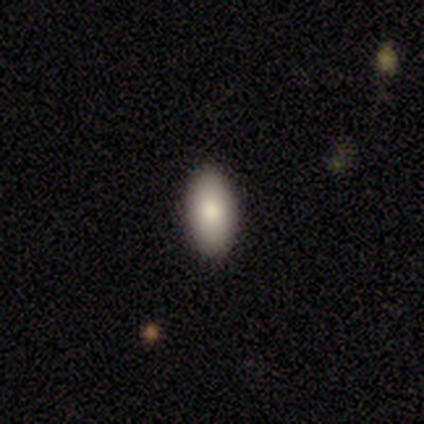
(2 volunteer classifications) Q: Smooth or featured?
A: smooth (100%)
Q: How rounded?
A: in between (100%)
Q: Merging?
A: none (100%)